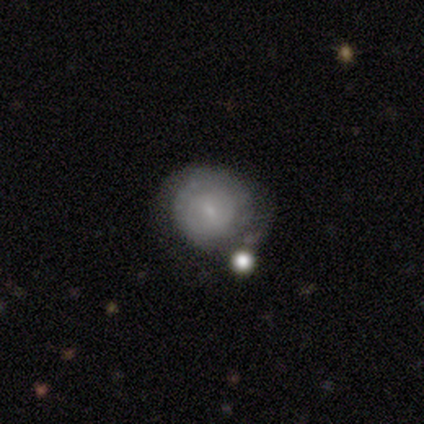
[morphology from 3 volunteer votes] This is marginally a smooth galaxy (33%, tied with featured or disk and star or artifact). How rounded: clearly round (100%). Merging: possibly none (50%, tied with merger).